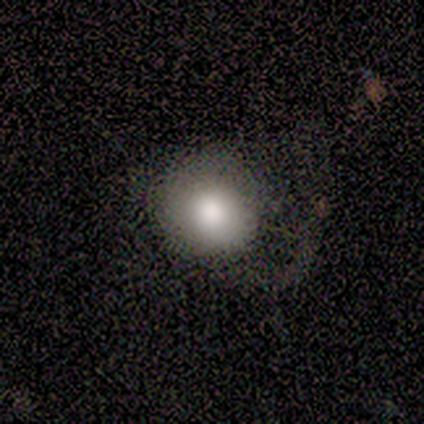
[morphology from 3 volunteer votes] Smooth or featured?
  - smooth: 67% *
  - featured or disk: 33%
  - star or artifact: 0%
How rounded?
  - round: 100% *
  - in between: 0%
  - cigar-shaped: 0%
Merging?
  - none: 67% *
  - minor disturbance: 33%
  - major disturbance: 0%
  - merger: 0%